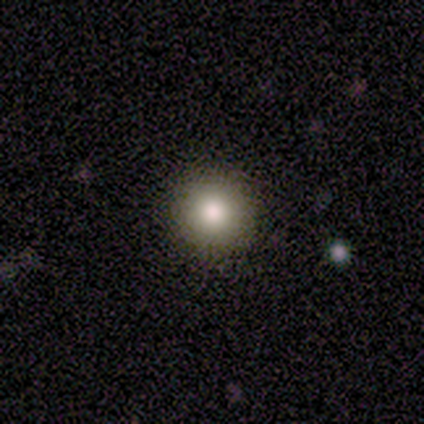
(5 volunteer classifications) Smooth or featured: smooth — 100%
How rounded: round — 100%
Merging: none — 100%